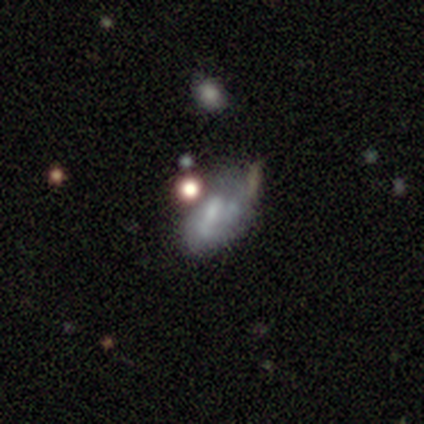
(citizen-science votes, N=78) Overall: featured or disk (58%; smooth 29%). Edge-on disk: no (98%). Bar: no (70%). Spiral arms: no (82%). Bulge size: none (43%; moderate 27%). Merging: minor disturbance (19%, tied with merger).